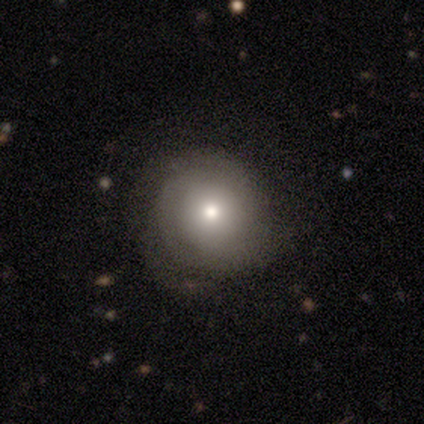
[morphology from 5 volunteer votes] This is clearly a smooth galaxy (80%). How rounded: likely round (75%). Merging: clearly none (100%).